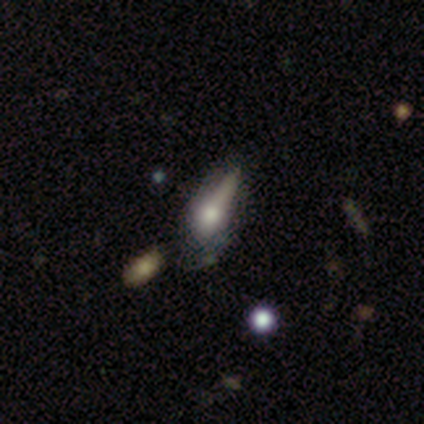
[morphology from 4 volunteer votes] Smooth or featured?
  - smooth: 75% *
  - star or artifact: 25%
  - featured or disk: 0%
How rounded?
  - in between: 67% *
  - round: 33%
  - cigar-shaped: 0%
Merging?
  - major disturbance: 100% *
  - none: 0%
  - minor disturbance: 0%
  - merger: 0%